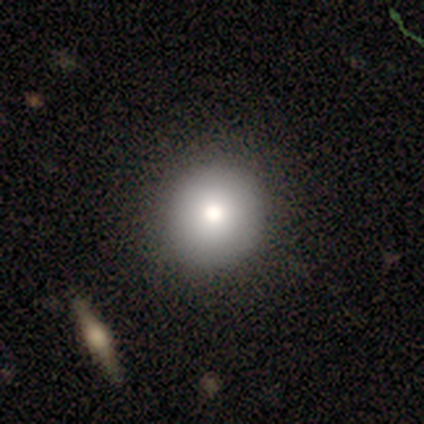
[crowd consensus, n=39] This is likely a smooth galaxy (74%). How rounded: clearly round (90%). Merging: clearly none (97%).